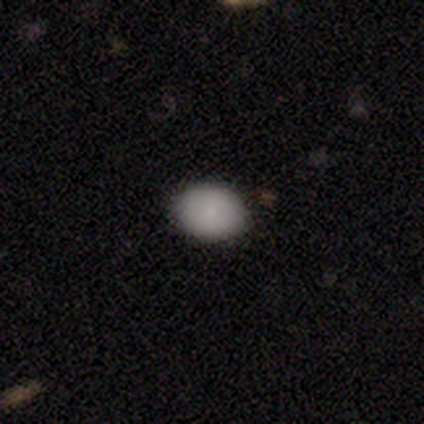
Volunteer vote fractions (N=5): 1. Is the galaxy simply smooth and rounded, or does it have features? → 80% smooth, 20% star or artifact, 0% featured or disk.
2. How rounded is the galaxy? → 50% round (tied), 50% in between (tied), 0% cigar-shaped.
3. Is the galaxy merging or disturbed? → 100% none, 0% minor disturbance, 0% major disturbance, 0% merger.